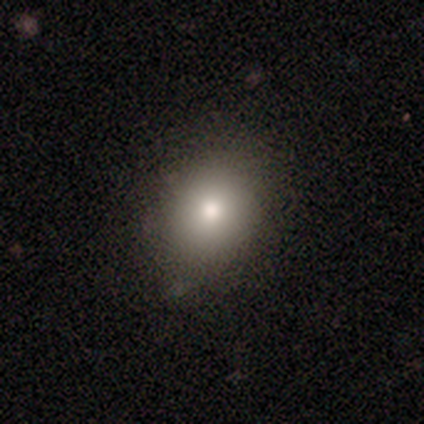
Morphology: type=smooth (100%); roundness=round (50%, tied with in between); merging=none (90%).